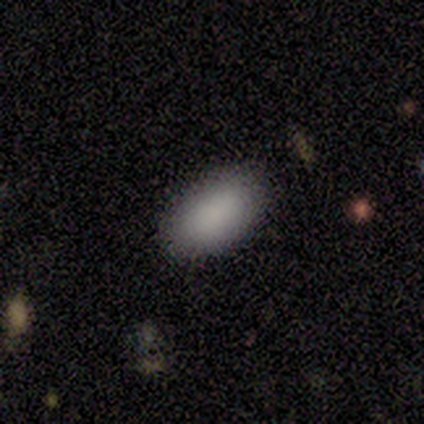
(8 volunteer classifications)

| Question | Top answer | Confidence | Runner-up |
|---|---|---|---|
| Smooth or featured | smooth | 100% | — |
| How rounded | in between | 88% | cigar-shaped (12%) |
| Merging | none | 75% | minor disturbance (12%) |